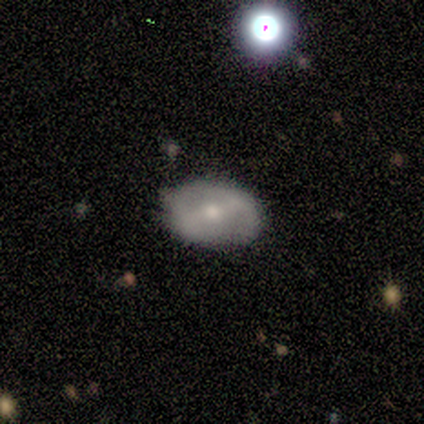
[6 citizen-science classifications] This appears to be a featured or disk galaxy (83%) with a strong bar (60%), no spiral arms (80%) and a small central bulge (60%). Merging: none (100%).